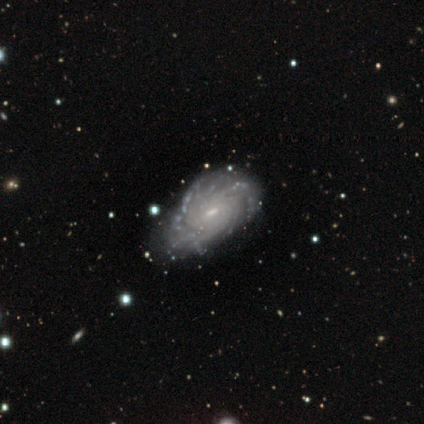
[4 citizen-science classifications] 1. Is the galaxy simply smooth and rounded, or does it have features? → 75% featured or disk, 25% star or artifact, 0% smooth.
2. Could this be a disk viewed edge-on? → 100% no, 0% yes.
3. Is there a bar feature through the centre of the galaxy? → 67% weak, 33% no, 0% strong.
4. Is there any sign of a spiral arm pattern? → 100% yes, 0% no.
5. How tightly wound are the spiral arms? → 100% tight, 0% medium, 0% loose.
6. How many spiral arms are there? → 33% 3 (tied), 33% more than 4 (tied), 33% can't tell (tied), 0% 1, 0% 2, 0% 4.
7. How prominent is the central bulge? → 33% moderate (tied), 33% small (tied), 33% none (tied), 0% dominant, 0% large.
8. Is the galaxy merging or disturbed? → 67% minor disturbance, 33% major disturbance, 0% none, 0% merger.